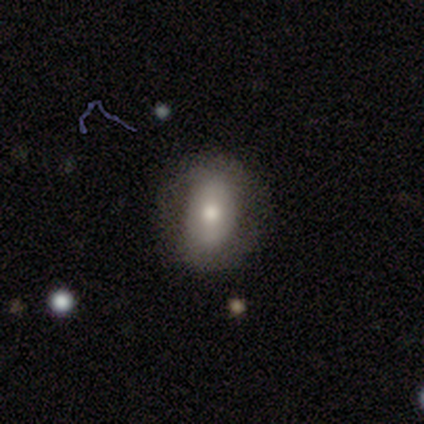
smooth_or_featured: featured or disk (p=0.67) [alt: smooth p=0.33]
disk_edge_on: no (p=1.00)
bar: no (p=0.75) [alt: strong p=0.25]
has_spiral_arms: yes (p=0.50) [tied with: no p=0.50]
spiral_winding: tight (p=0.50) [tied with: loose p=0.50]
spiral_arm_count: 2 (p=1.00)
bulge_size: moderate (p=0.75) [alt: small p=0.25]
merging: none (p=0.83) [alt: minor disturbance p=0.17]